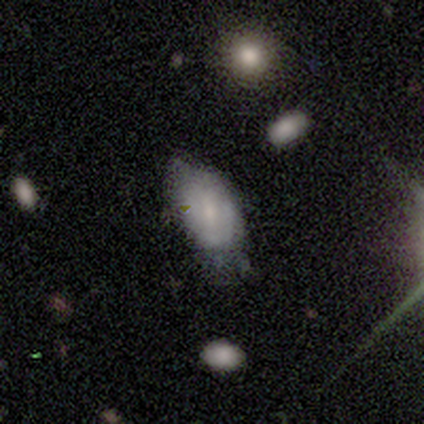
Morphology: type=smooth (75%); roundness=in between (100%); merging=minor disturbance (75%).